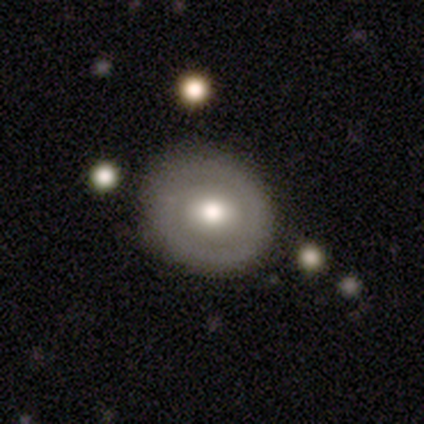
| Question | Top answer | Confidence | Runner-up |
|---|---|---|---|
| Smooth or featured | smooth | 80% | featured or disk (20%) |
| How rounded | round | 75% | in between (25%) |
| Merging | none | 100% | — |